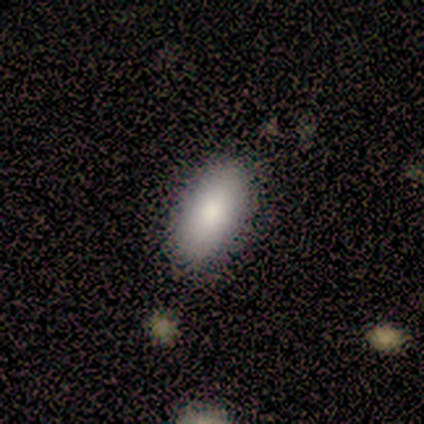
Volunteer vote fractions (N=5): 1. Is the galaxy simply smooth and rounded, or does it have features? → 80% smooth, 20% featured or disk, 0% star or artifact.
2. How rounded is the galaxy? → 100% in between, 0% round, 0% cigar-shaped.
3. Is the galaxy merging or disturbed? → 80% none, 20% minor disturbance, 0% major disturbance, 0% merger.